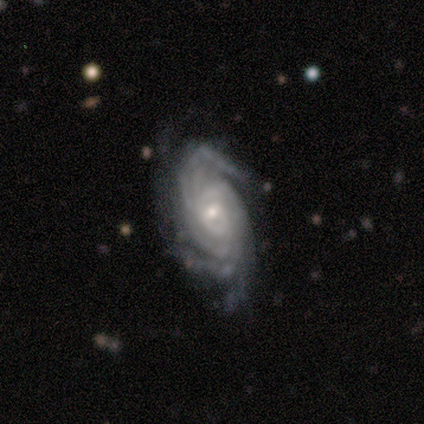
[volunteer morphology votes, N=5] smooth_or_featured: featured or disk (p=1.00)
disk_edge_on: no (p=1.00)
bar: no (p=0.80) [alt: weak p=0.20]
has_spiral_arms: yes (p=1.00)
spiral_winding: tight (p=0.60) [alt: medium p=0.40]
spiral_arm_count: can't tell (p=0.60) [alt: 3 p=0.20]
bulge_size: small (p=0.80) [alt: moderate p=0.20]
merging: none (p=0.40) [tied with: minor disturbance p=0.40]